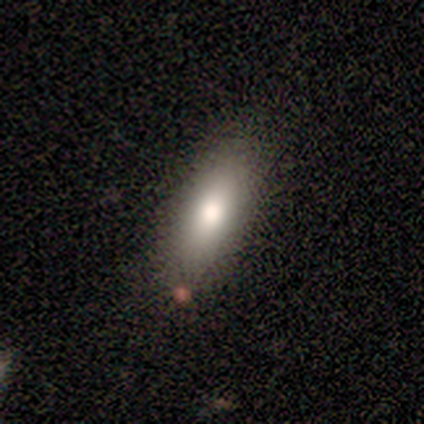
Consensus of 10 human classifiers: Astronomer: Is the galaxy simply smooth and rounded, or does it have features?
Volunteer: smooth — 80%.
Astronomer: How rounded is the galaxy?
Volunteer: in between — 75%.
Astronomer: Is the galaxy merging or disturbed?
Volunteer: none — 89%.